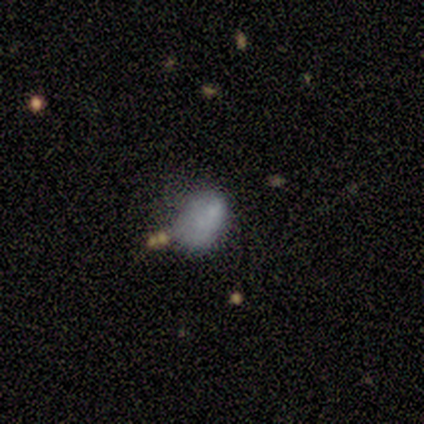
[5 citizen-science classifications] This appears to be a smooth galaxy with no disk features (80%) that is in between round and cigar-shaped (100%). Merging: none (50%).